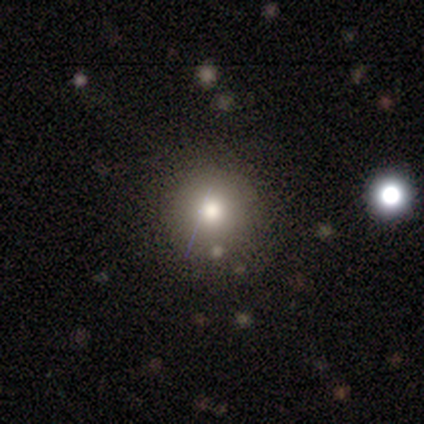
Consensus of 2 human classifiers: smooth_or_featured: smooth (p=0.50) [tied with: featured or disk p=0.50]
how_rounded: round (p=1.00)
merging: none (p=0.50) [tied with: major disturbance p=0.50]